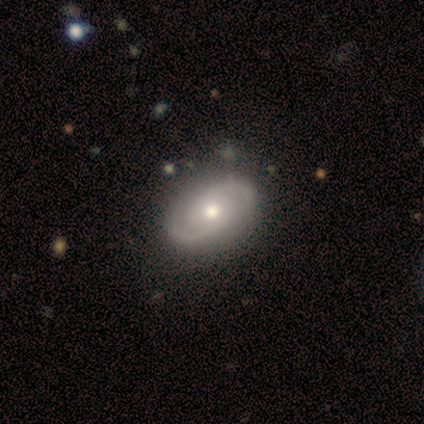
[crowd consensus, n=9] Smooth or featured?
  - featured or disk: 100% *
  - smooth: 0%
  - star or artifact: 0%
Edge-on disk?
  - no: 89% *
  - yes: 11%
Bar?
  - no: 75% *
  - weak: 25%
  - strong: 0%
Spiral arms?
  - yes: 100% *
  - no: 0%
Spiral winding?
  - medium: 62% *
  - tight: 38%
  - loose: 0%
Spiral arm count?
  - 2: 100% *
  - 1: 0%
  - 3: 0%
  - 4: 0%
  - more than 4: 0%
  - can't tell: 0%
Bulge size?
  - moderate: 62% *
  - small: 38%
  - dominant: 0%
  - large: 0%
  - none: 0%
Merging?
  - none: 100% *
  - minor disturbance: 0%
  - major disturbance: 0%
  - merger: 0%